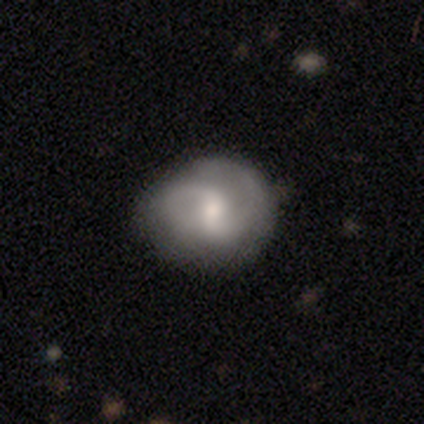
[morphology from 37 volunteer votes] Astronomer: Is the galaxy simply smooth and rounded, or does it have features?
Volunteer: featured or disk — 76%.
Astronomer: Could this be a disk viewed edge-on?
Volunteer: no — 96%.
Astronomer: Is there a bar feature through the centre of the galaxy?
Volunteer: weak — 74%.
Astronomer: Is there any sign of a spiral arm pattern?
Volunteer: yes — 93%.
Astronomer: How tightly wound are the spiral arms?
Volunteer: medium — 56% (runner-up: loose, 36%).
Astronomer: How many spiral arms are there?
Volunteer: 2 — 64%.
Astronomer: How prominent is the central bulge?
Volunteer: moderate — 56% (runner-up: small, 44%).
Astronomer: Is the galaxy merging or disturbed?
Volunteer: none — 63%.